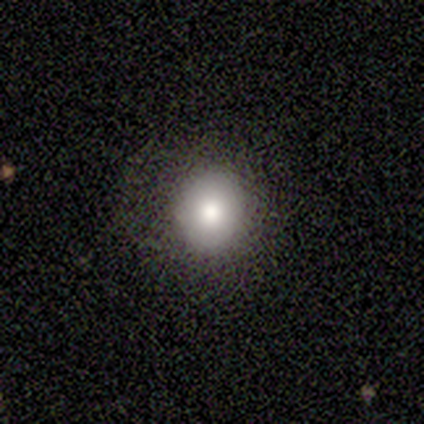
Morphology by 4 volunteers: Volunteers were most divided on "smooth or featured": smooth: 75%, featured or disk: 25%, star or artifact: 0%. More confident: how rounded — round (100%); merging — none (75%).